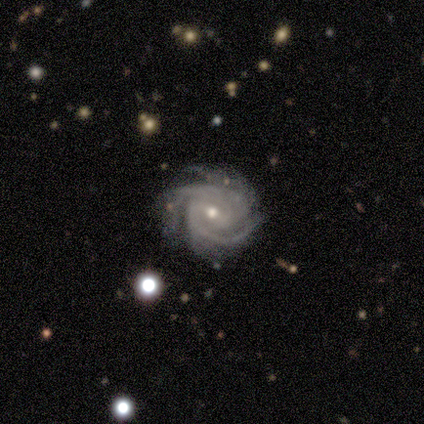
Morphology: type=featured or disk (100%); edge-on=no (100%); bar=strong (40%, tied with no); spiral arms=yes (100%); winding=tight (60%); arm count=3 (40%, tied with can't tell); bulge=moderate (80%); merging=none (100%).